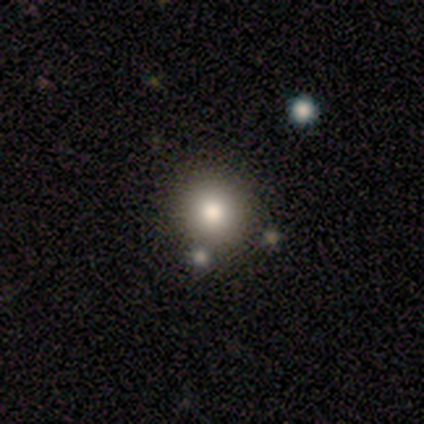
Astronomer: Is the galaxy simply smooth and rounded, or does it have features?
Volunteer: smooth — 67%.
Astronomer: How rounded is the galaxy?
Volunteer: round — 100%.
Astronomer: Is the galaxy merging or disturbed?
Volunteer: none — 50%, tied with minor disturbance at 50%.